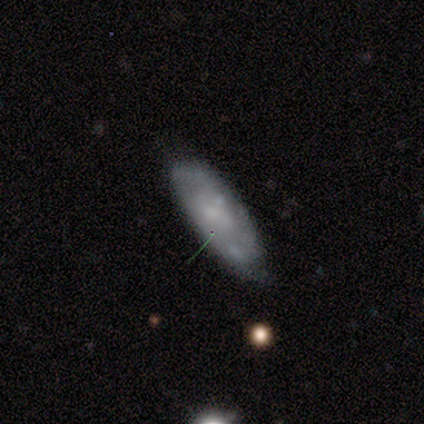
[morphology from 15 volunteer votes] This appears to be a featured or disk galaxy (67%) with no bar (78%), no spiral arms (56%) and a moderate central bulge (56%). Merging: none (57%).